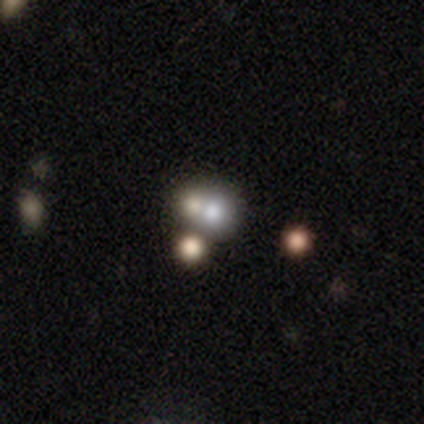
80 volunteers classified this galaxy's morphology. type=smooth (57%); roundness=round (78%); merging=merger (57%).